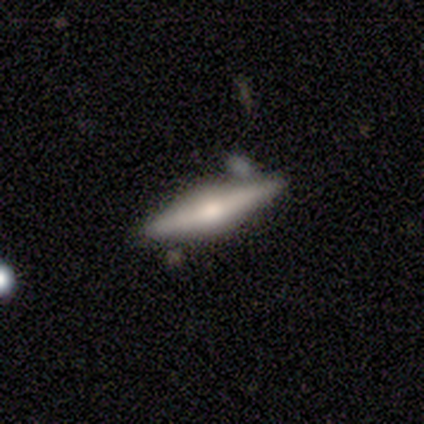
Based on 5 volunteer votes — featured or disk 80%, smooth 20%, star or artifact 0%. Down the decision tree: edge-on disk — yes (100%); edge-on bulge — rounded (75%); merging — none (80%).